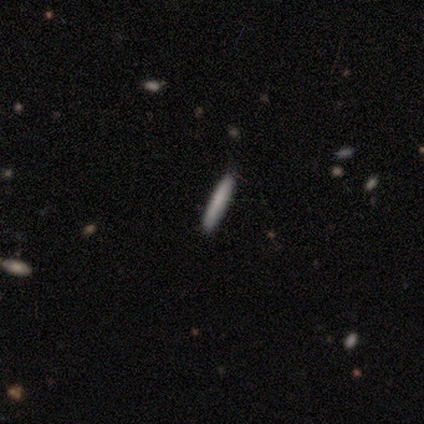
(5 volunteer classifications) Overall: smooth (80%). How rounded: cigar-shaped (100%). Merging: none (100%).